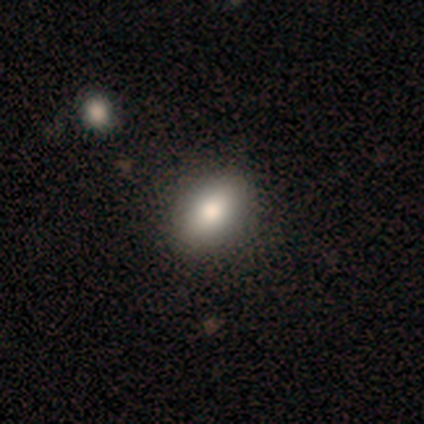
Smooth or featured: smooth — 100%
How rounded: in between — 80% (round — 20%)
Merging: none — 80% (minor disturbance — 20%)